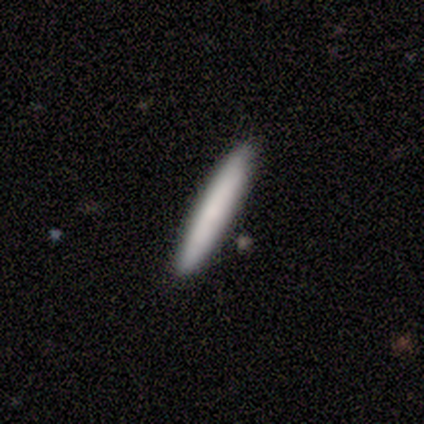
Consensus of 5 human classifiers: Volunteers were most divided on "merging": none: 80%, merger: 20%, minor disturbance: 0%, major disturbance: 0%. More confident: smooth or featured — smooth (100%); how rounded — cigar-shaped (100%).